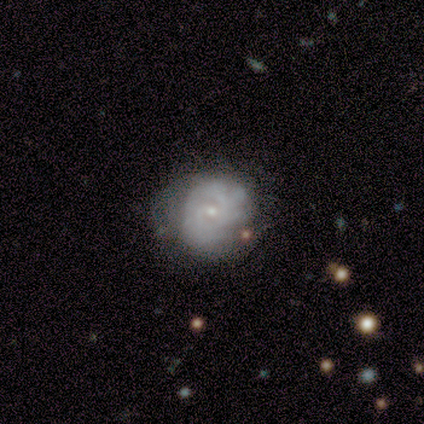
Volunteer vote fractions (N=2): This is possibly a smooth galaxy (50%, tied with featured or disk). How rounded: clearly round (100%). Merging: clearly none (100%).